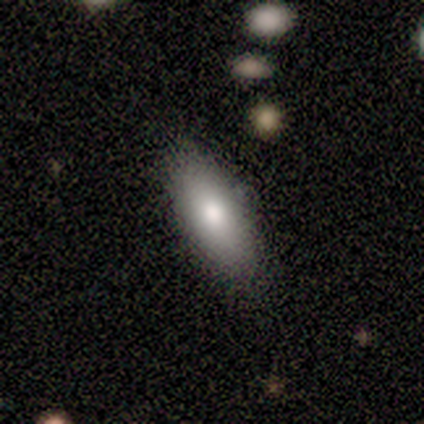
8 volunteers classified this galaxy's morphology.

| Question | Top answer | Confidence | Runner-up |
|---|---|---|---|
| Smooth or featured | smooth | 100% | — |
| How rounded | in between | 50% | tied: cigar-shaped (50%) |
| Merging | none | 88% | minor disturbance (12%) |